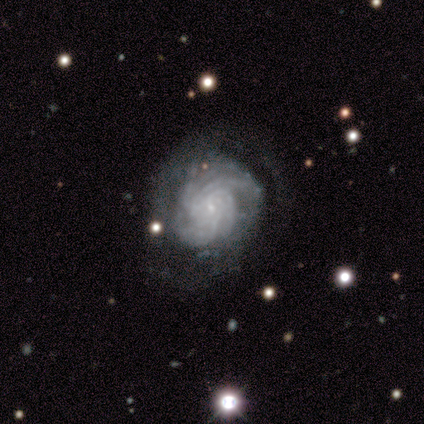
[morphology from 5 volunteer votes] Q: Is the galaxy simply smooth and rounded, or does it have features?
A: featured or disk — 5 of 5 (100%).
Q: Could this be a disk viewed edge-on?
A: no — 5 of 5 (100%).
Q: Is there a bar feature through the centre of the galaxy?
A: no — 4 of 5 (80%).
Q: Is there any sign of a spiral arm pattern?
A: yes — 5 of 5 (100%).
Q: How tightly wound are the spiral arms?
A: tight — 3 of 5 (60%).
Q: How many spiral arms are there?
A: more than 4 — 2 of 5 (40%, tied with can't tell).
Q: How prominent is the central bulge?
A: small — 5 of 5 (100%).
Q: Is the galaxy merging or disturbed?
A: none — 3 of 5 (60%).